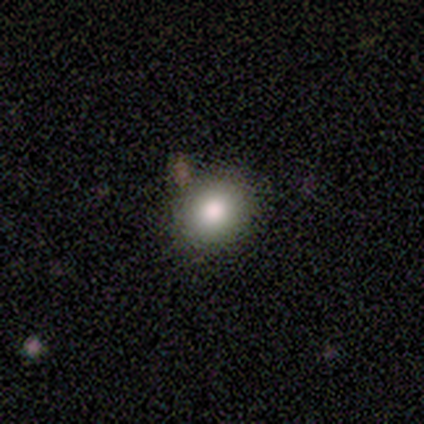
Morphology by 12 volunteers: A smooth galaxy with no disk features (92%) that is round (55%). Merging: none (75%).